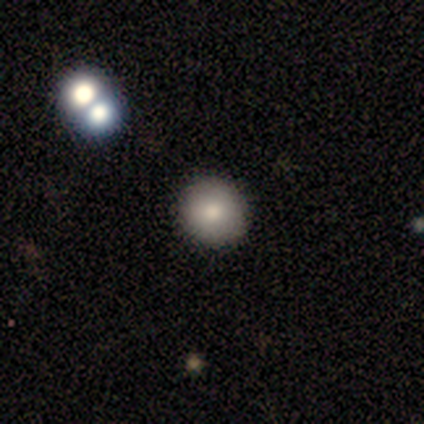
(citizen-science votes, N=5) Smooth or featured?
  - smooth: 100% *
  - featured or disk: 0%
  - star or artifact: 0%
How rounded?
  - round: 100% *
  - in between: 0%
  - cigar-shaped: 0%
Merging?
  - none: 80% *
  - merger: 20%
  - minor disturbance: 0%
  - major disturbance: 0%